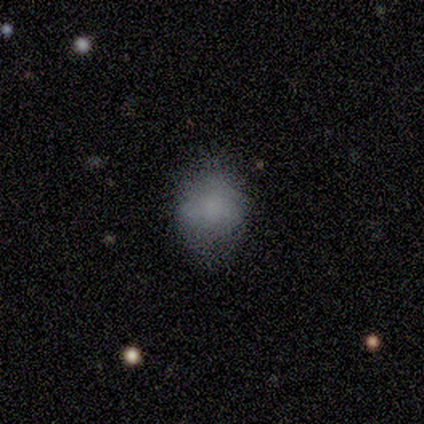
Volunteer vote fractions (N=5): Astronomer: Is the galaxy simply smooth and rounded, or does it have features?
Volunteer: smooth — 100%.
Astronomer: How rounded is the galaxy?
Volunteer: in between — 60% (runner-up: round, 40%).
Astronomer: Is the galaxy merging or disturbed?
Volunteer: none — 80%.